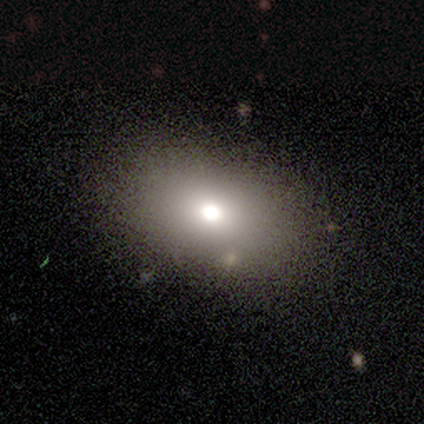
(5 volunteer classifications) Smooth or featured: smooth — 60% (featured or disk — 20%)
How rounded: in between — 100%
Merging: none — 75% (major disturbance — 25%)